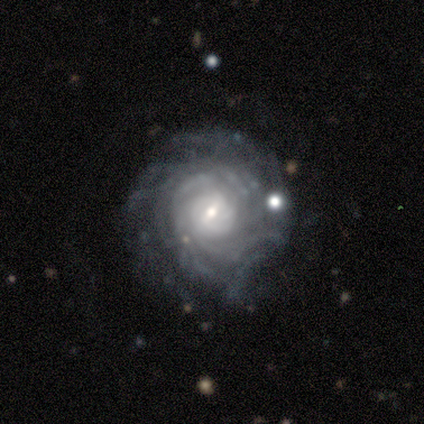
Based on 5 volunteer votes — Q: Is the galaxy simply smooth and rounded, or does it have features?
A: featured or disk — 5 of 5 (100%).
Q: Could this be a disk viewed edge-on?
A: no — 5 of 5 (100%).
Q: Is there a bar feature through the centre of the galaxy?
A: weak — 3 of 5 (60%).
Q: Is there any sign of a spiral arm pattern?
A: yes — 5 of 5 (100%).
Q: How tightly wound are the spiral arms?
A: tight — 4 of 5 (80%).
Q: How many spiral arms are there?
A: can't tell — 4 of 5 (80%).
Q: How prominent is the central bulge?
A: moderate — 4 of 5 (80%).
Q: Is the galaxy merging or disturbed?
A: minor disturbance — 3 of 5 (60%).